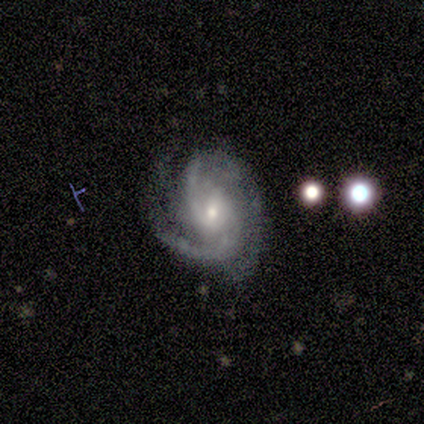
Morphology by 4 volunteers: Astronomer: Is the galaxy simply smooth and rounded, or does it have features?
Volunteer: featured or disk — 75%.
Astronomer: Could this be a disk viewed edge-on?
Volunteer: no — 100%.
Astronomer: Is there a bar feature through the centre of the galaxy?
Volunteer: weak — 100%.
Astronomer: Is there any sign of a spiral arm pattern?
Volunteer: yes — 100%.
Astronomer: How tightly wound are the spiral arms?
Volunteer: medium — 100%.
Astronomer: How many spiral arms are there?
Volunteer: can't tell — 67%.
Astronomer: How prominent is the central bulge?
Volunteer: small — 67%.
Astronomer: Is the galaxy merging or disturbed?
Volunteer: none — 75%.